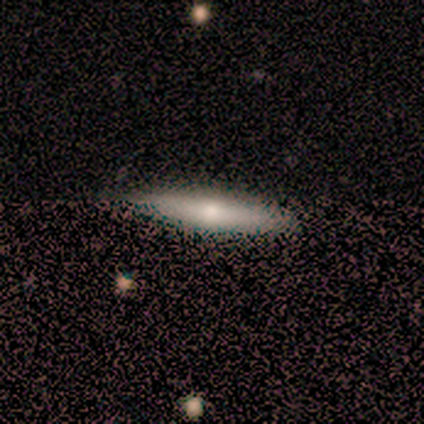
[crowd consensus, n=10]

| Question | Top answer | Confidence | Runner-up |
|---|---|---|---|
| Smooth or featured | smooth | 60% | featured or disk (40%) |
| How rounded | cigar-shaped | 100% | — |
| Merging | none | 80% | minor disturbance (20%) |